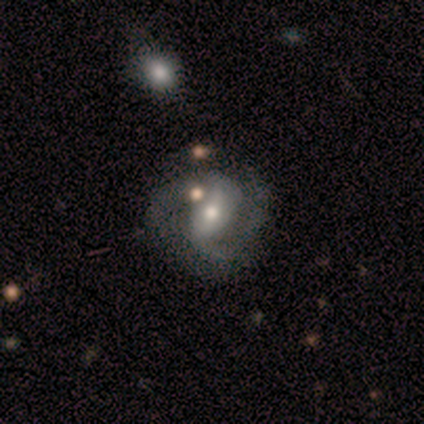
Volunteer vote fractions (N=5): Volunteers were most divided on "spiral winding": medium: 50%, tight: 25%, loose: 25%. More confident: smooth or featured — featured or disk (100%); spiral arms — yes (100%); spiral arm count — 2 (100%); merging — none (100%); edge-on disk — no (80%); bar — weak (75%); bulge size — small (75%).